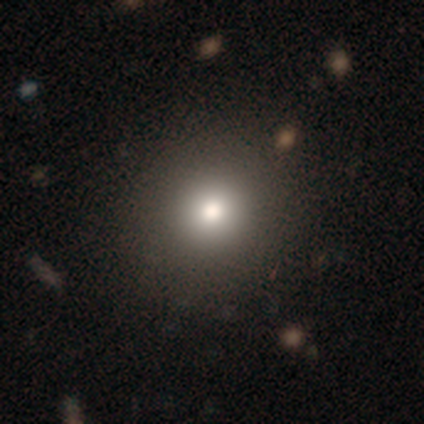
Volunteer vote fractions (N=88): This appears to be a smooth galaxy with no disk features (72%) that is round (90%). Merging: none (90%).